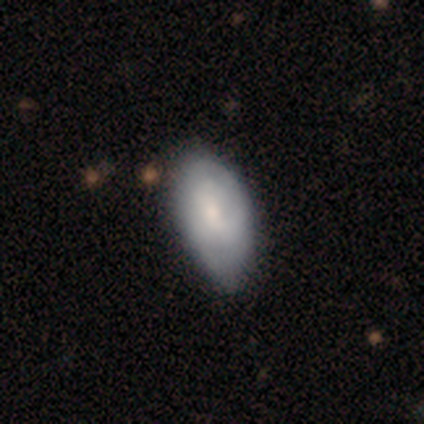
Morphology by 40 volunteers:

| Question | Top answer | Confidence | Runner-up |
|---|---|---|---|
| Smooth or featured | featured or disk | 52% | smooth (42%) |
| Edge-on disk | no | 100% | — |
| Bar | no | 52% | weak (38%) |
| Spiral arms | yes | 62% | no (38%) |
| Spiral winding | tight | 38% | medium (31%) |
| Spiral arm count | can't tell | 54% | 2 (23%) |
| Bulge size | moderate | 48% | small (43%) |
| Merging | minor disturbance | 37% | none (32%) |